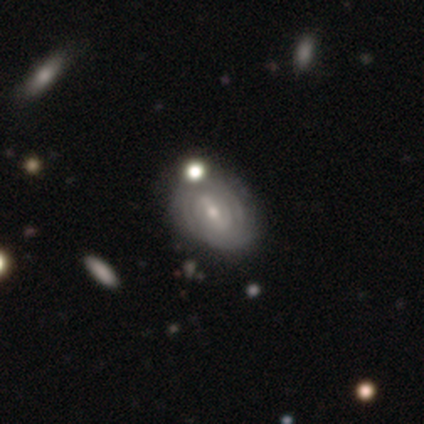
Morphology: type=featured or disk (100%); edge-on=no (100%); bar=no (100%); spiral arms=yes (100%); winding=tight (100%); arm count=can't tell (100%); bulge=small (100%); merging=none (100%).